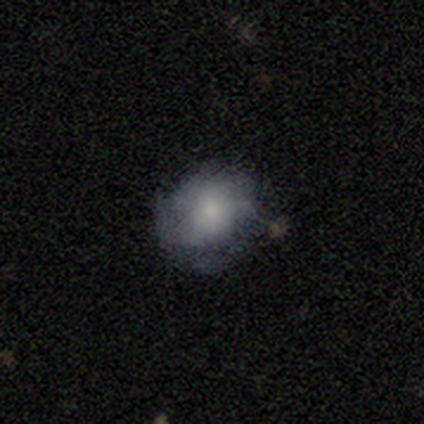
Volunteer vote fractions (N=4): Morphology: type=star or artifact (50%).